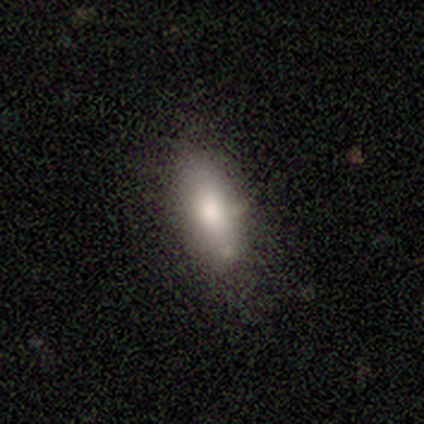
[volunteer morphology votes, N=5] Volunteers were most divided on "smooth or featured" (2-way tie): smooth: 40%, star or artifact: 40%, featured or disk: 20%; "how rounded" (2-way tie): in between: 50%, cigar-shaped: 50%, round: 0%; "merging" (3-way tie): none: 33%, minor disturbance: 33%, major disturbance: 33%, merger: 0%.